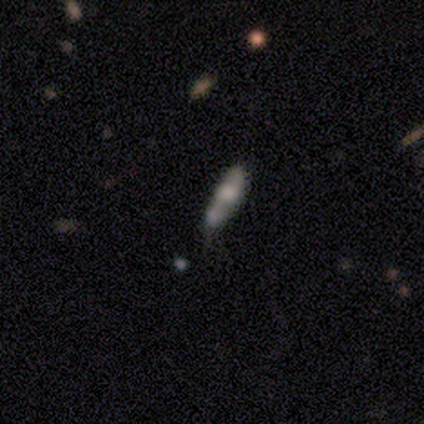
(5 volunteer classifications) smooth 60%, featured or disk 40%, star or artifact 0%. Down the decision tree: how rounded — in between (67%); merging — none (40%, tied with minor disturbance).